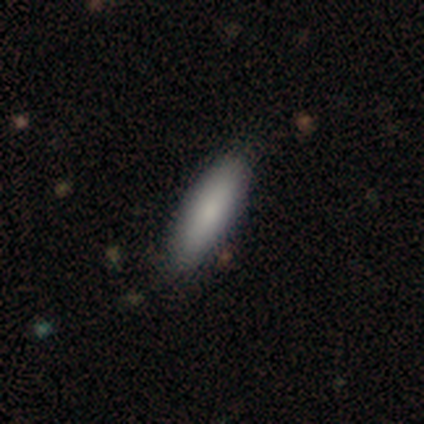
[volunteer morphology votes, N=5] A smooth galaxy with no disk features (100%) that is cigar-shaped (60%). Merging: none (80%).